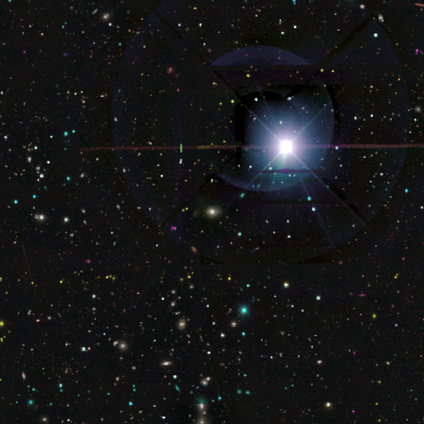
smooth-or-featured: star or artifact: 100% | smooth: 0% | featured or disk: 0%